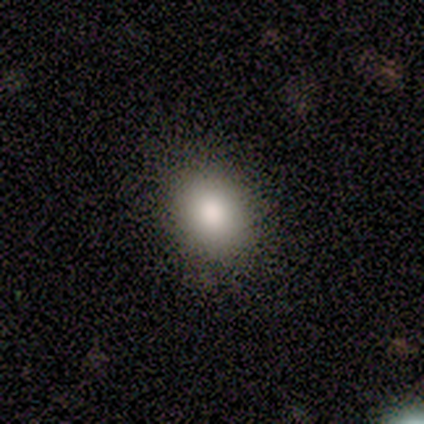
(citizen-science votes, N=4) Morphology: type=smooth (75%); roundness=in between (100%); merging=none (100%).